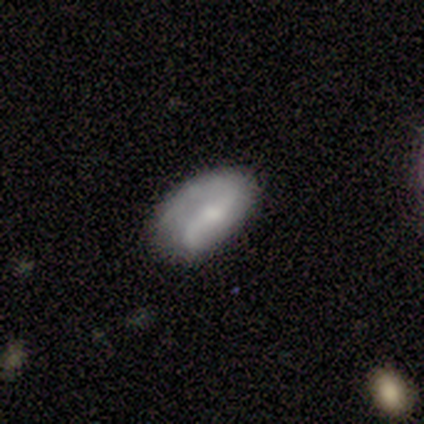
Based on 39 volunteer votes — Smooth or featured? 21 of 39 (54%) said featured or disk. Edge-on disk? 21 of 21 (100%) said no. Bar? 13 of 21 (62%) said weak. Spiral arms? 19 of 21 (90%) said yes. Spiral winding? 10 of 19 (53%) said loose. Spiral arm count? 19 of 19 (100%) said 2. Bulge size? 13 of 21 (62%) said small. Merging? 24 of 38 (63%) said none.